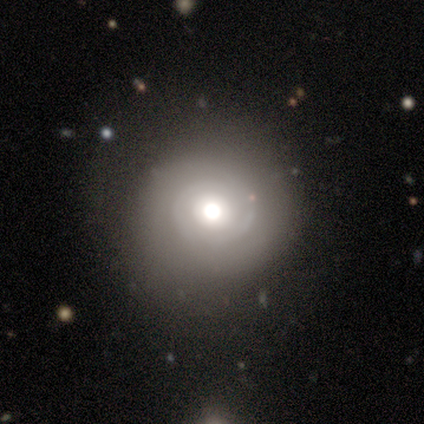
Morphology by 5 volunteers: Smooth or featured? smooth (100%)
How rounded? round (100%)
Merging? none (60%)